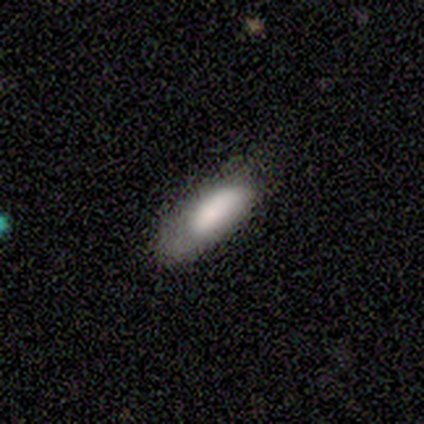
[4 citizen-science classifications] Overall: smooth (75%). How rounded: cigar-shaped (67%; in between 33%). Merging: minor disturbance (75%).